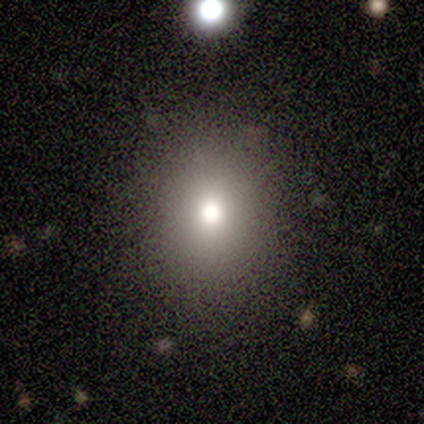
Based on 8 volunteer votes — A smooth galaxy with no disk features (75%) that is round (67%).

Vote fractions:
- Smooth or featured? smooth: 75% / featured or disk: 25% / star or artifact: 0%
- How rounded? round: 67% / in between: 33% / cigar-shaped: 0%
- Merging? none: 88% / minor disturbance: 12% / major disturbance: 0% / merger: 0%